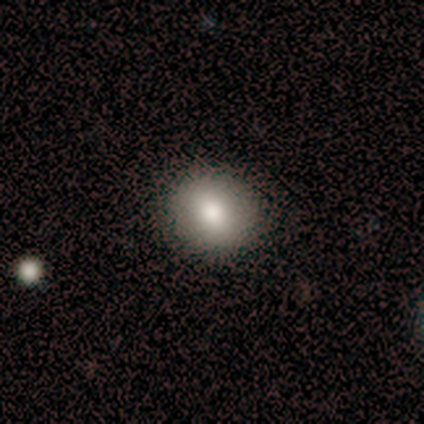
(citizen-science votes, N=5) A smooth galaxy with no disk features (100%) that is round (80%).

Vote fractions:
- Smooth or featured? smooth: 100% / featured or disk: 0% / star or artifact: 0%
- How rounded? round: 80% / in between: 20% / cigar-shaped: 0%
- Merging? none: 80% / minor disturbance: 20% / major disturbance: 0% / merger: 0%